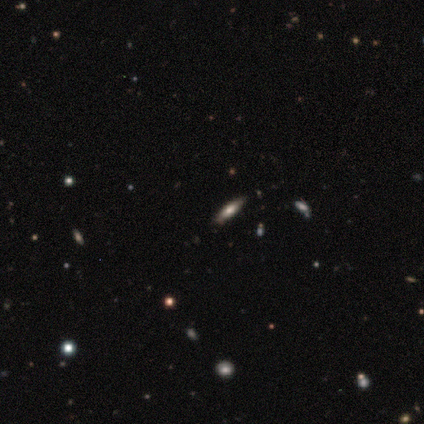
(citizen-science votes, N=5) Morphology: type=smooth (60%); roundness=cigar-shaped (100%); merging=none (100%).